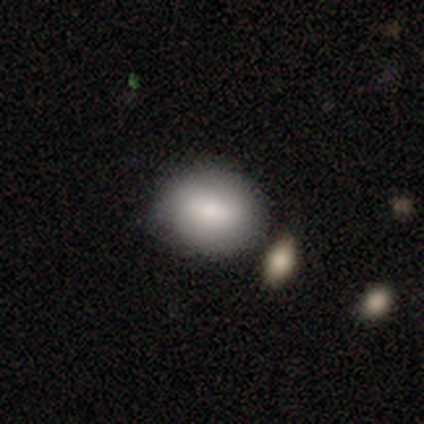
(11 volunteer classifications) Q: Smooth or featured?
A: smooth (82%); runner-up: featured or disk (9%)
Q: How rounded?
A: round (67%); runner-up: in between (33%)
Q: Merging?
A: none (90%); runner-up: minor disturbance (10%)